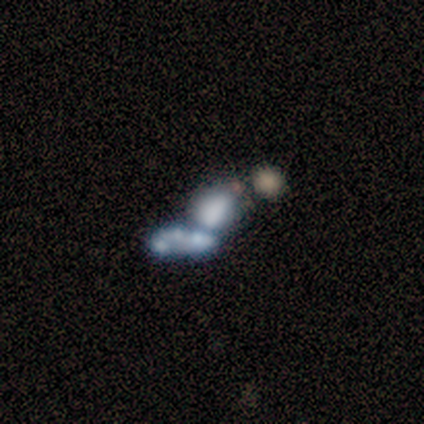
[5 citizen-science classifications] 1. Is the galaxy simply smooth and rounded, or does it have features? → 40% smooth (tied), 40% star or artifact (tied), 20% featured or disk.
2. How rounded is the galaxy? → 50% in between (tied), 50% cigar-shaped (tied), 0% round.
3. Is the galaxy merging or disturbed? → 100% merger, 0% none, 0% minor disturbance, 0% major disturbance.